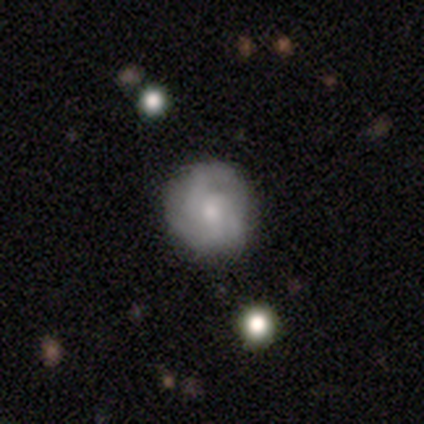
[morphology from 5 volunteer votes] Volunteers were most divided on "smooth or featured": smooth: 60%, featured or disk: 40%, star or artifact: 0%. More confident: how rounded — round (100%); merging — none (100%).